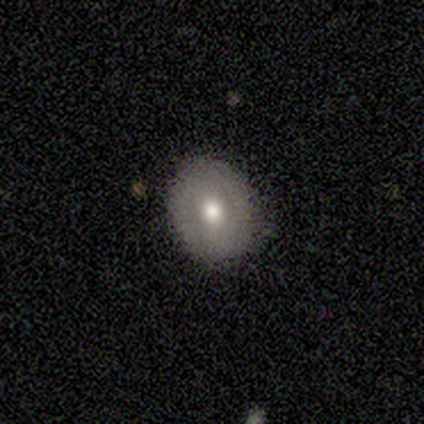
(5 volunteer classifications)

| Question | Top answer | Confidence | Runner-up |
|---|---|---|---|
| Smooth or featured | smooth | 100% | — |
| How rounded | round | 80% | in between (20%) |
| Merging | none | 60% | minor disturbance (40%) |